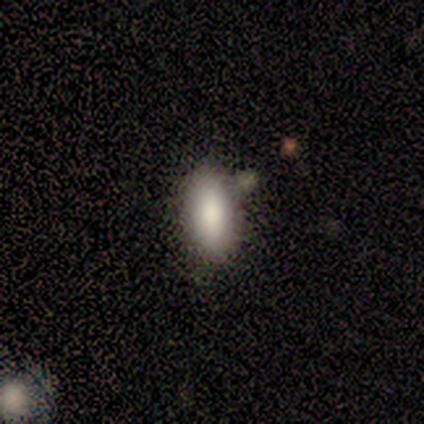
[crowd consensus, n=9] Smooth or featured? 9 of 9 (100%) said smooth. How rounded? 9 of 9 (100%) said in between. Merging? 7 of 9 (78%) said none.